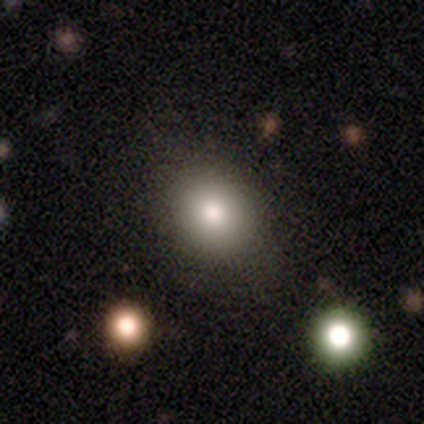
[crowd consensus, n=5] Overall: smooth (60%; star or artifact 40%). How rounded: round (67%; in between 33%). Merging: none (67%; minor disturbance 33%).